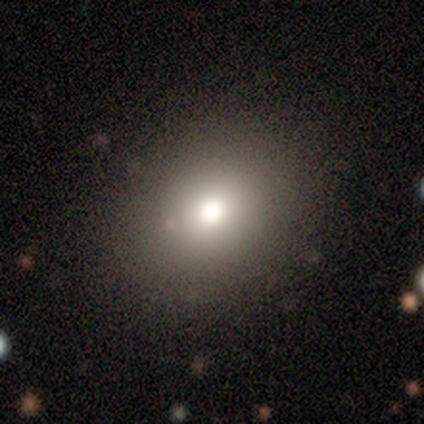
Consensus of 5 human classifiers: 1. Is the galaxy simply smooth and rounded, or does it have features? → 60% smooth, 20% featured or disk, 20% star or artifact.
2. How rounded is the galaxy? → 100% round, 0% in between, 0% cigar-shaped.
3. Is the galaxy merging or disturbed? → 100% none, 0% minor disturbance, 0% major disturbance, 0% merger.